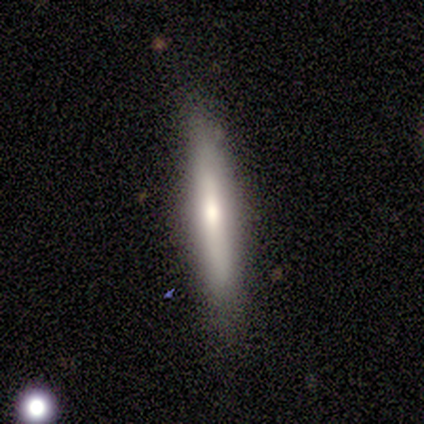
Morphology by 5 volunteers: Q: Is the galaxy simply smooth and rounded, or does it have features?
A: featured or disk — 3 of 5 (60%).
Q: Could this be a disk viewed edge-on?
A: yes — 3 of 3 (100%).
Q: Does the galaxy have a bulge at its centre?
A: rounded — 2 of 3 (67%).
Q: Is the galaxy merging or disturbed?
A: none — 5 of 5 (100%).